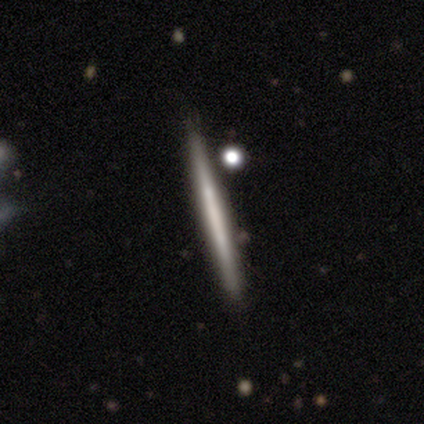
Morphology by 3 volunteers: smooth_or_featured: smooth (p=1.00)
how_rounded: cigar-shaped (p=1.00)
merging: none (p=1.00)